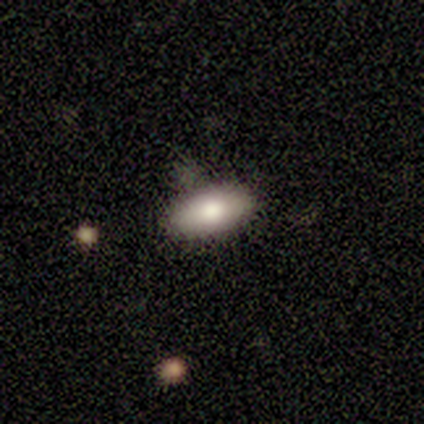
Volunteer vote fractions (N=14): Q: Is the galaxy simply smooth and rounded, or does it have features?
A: smooth — 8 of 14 (57%).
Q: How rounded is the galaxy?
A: in between — 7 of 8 (88%).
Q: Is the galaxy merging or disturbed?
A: none — 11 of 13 (85%).